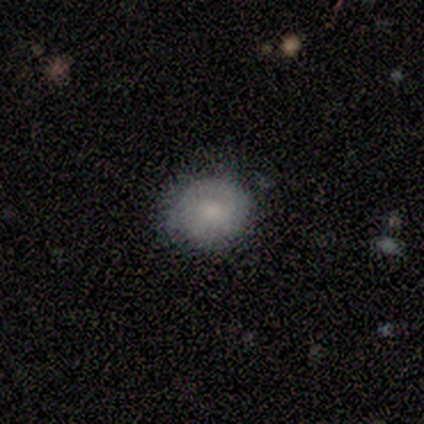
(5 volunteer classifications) A smooth galaxy with no disk features (100%) that is round (100%).

Vote fractions:
- Smooth or featured? smooth: 100% / featured or disk: 0% / star or artifact: 0%
- How rounded? round: 100% / in between: 0% / cigar-shaped: 0%
- Merging? none: 60% / minor disturbance: 40% / major disturbance: 0% / merger: 0%